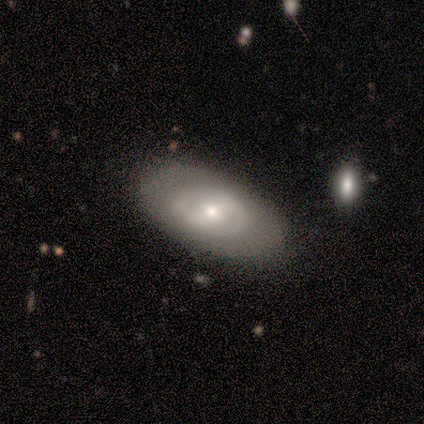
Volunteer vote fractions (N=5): A featured or disk galaxy (80%) with a strong bar (50%, tied with no), 2 (100%) tight (50%, tied with loose) spiral arms (50%, tied with no) and a small central bulge (75%).

Vote fractions:
- Smooth or featured? featured or disk: 80% / smooth: 20% / star or artifact: 0%
- Edge-on disk? no: 100% / yes: 0%
- Bar? strong: 50% (tied) / no: 50% (tied) / weak: 0%
- Spiral arms? yes: 50% (tied) / no: 50% (tied)
- Spiral winding? tight: 50% (tied) / loose: 50% (tied) / medium: 0%
- Spiral arm count? 2: 100% / 1: 0% / 3: 0% / 4: 0% / more than 4: 0% / can't tell: 0%
- Bulge size? small: 75% / moderate: 25% / dominant: 0% / large: 0% / none: 0%
- Merging? none: 80% / minor disturbance: 20% / major disturbance: 0% / merger: 0%